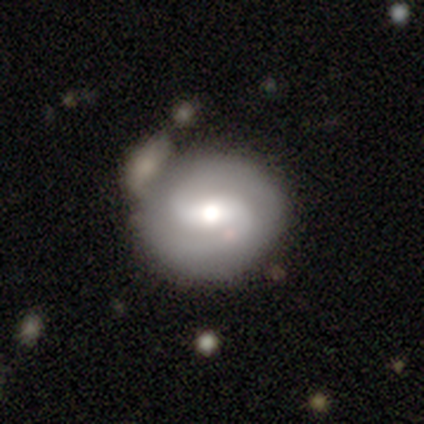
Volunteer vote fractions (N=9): Q: Smooth or featured?
A: featured or disk (78%); runner-up: smooth (22%)
Q: Edge-on disk?
A: no (100%)
Q: Bar?
A: strong (43%); runner-up: weak (29%)
Q: Spiral arms?
A: yes (100%)
Q: Spiral winding?
A: medium (43%); runner-up: tight (29%)
Q: Spiral arm count?
A: 2 (86%); runner-up: can't tell (14%)
Q: Bulge size?
A: moderate (71%); runner-up: large (14%)
Q: Merging?
A: none (67%); runner-up: merger (22%)